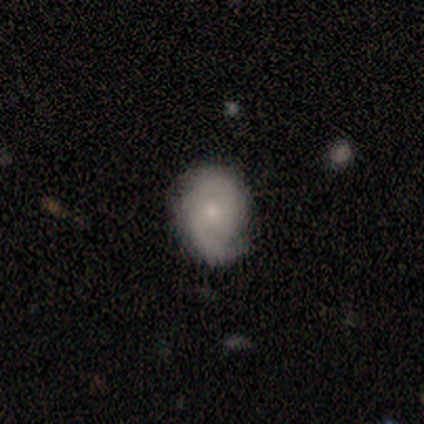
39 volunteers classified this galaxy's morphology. This appears to be a featured or disk galaxy (72%) with no bar (93%), 2 (64%) tight (68%) spiral arms (89%) and a small central bulge (61%). Merging: none (69%).